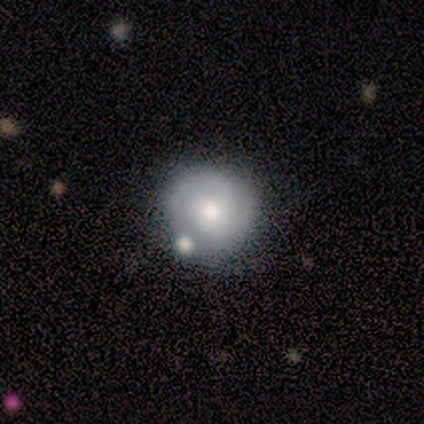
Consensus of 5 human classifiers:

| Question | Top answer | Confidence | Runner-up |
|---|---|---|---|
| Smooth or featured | featured or disk | 60% | smooth (40%) |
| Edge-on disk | no | 100% | — |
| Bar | no | 100% | — |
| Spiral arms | yes | 67% | no (33%) |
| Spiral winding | tight | 100% | — |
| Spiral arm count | can't tell | 100% | — |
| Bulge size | small | 67% | moderate (33%) |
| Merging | none | 40% | tied: merger (40%) |